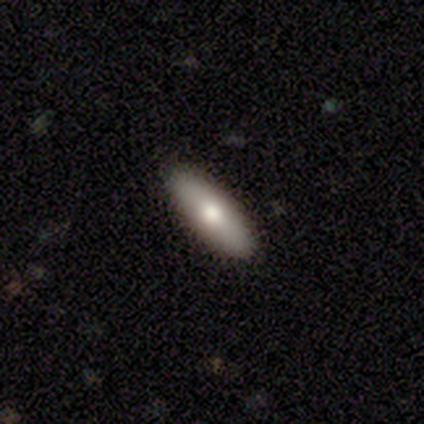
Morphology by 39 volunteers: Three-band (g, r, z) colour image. It shows a smooth galaxy with no disk features (59%) that is in between round and cigar-shaped (65%). Merging: none (89%).